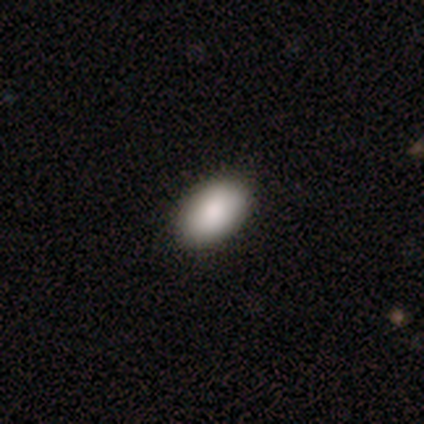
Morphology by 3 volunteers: type=smooth (100%); roundness=in between (100%); merging=none (100%).